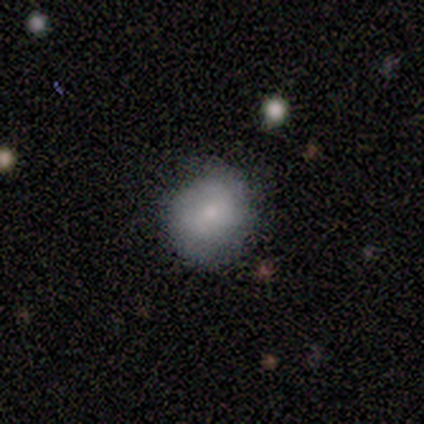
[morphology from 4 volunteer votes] This is likely a smooth galaxy (75%). How rounded: clearly round (100%). Merging: clearly none (100%).